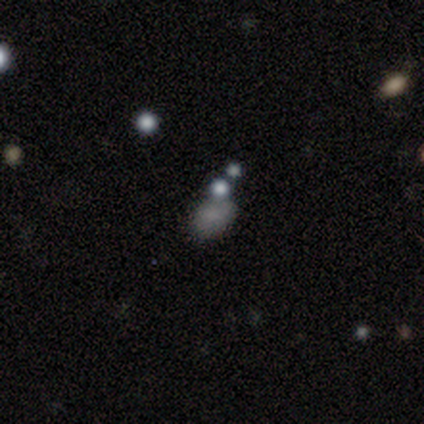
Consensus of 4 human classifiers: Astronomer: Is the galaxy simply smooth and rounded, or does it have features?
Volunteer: smooth — 50%, tied with star or artifact at 50%.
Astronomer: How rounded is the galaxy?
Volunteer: round — 50%, tied with in between at 50%.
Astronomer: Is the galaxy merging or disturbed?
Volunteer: none — 50%, tied with minor disturbance at 50%.